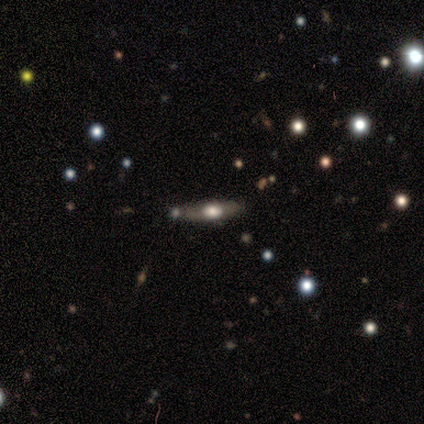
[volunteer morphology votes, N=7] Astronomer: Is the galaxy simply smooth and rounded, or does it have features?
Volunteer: smooth — 71%.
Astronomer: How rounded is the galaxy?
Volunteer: in between — 60% (runner-up: cigar-shaped, 40%).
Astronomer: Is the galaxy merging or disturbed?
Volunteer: none — 67%.